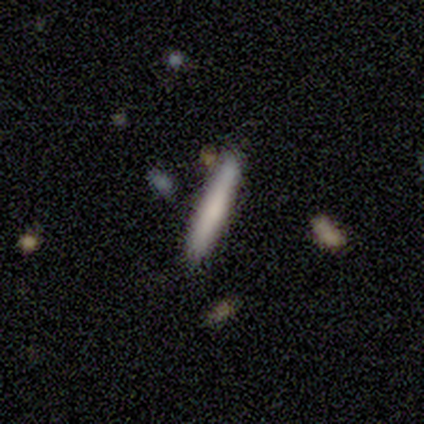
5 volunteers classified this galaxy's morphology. Smooth or featured: smooth — 60% (featured or disk — 40%)
How rounded: cigar-shaped — 100%
Merging: none — 100%